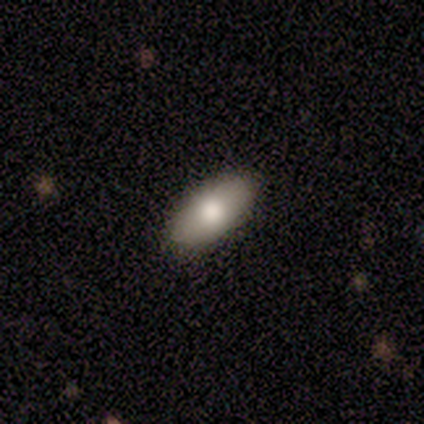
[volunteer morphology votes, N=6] Smooth or featured? 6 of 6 (100%) said smooth. How rounded? 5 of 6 (83%) said in between. Merging? 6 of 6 (100%) said none.